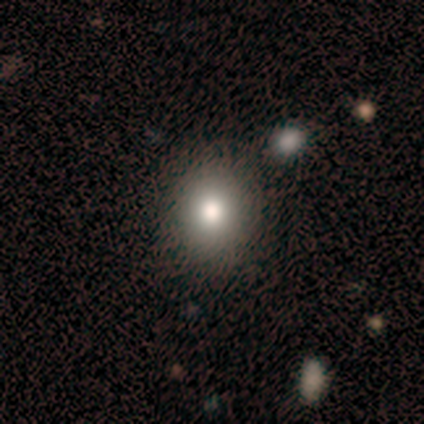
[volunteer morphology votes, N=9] Smooth or featured?
  - smooth: 67% *
  - star or artifact: 22%
  - featured or disk: 11%
How rounded?
  - round: 83% *
  - in between: 17%
  - cigar-shaped: 0%
Merging?
  - none: 86% *
  - minor disturbance: 14%
  - major disturbance: 0%
  - merger: 0%